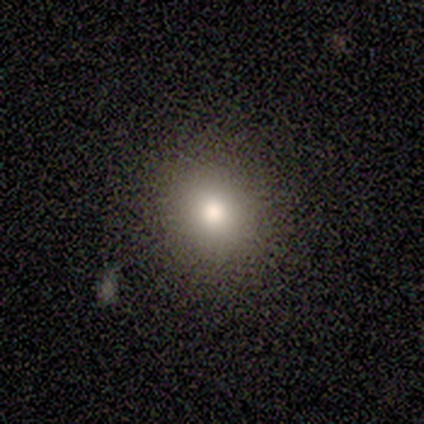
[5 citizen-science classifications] Smooth or featured: smooth — 80% (featured or disk — 20%)
How rounded: round — 100%
Merging: none — 100%